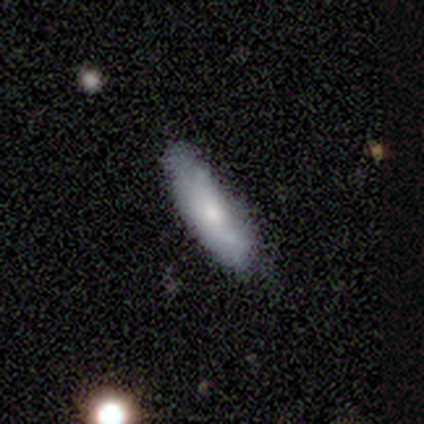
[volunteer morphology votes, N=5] This is clearly a smooth galaxy (100%). How rounded: clearly cigar-shaped (80%). Merging: clearly none (80%).